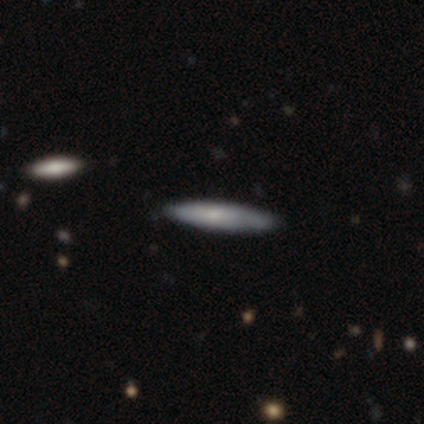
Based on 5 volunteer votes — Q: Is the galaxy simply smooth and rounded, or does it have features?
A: smooth — 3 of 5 (60%).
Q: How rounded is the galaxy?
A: cigar-shaped — 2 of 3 (67%).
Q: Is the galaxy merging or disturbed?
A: none — 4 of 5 (80%).